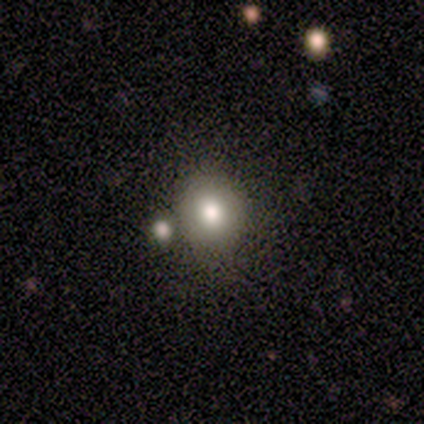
Morphology: type=star or artifact (75%).